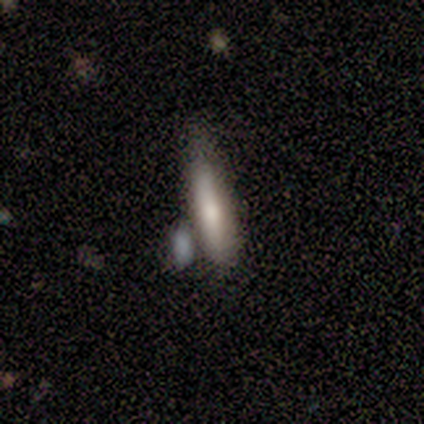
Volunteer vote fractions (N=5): smooth_or_featured: smooth (p=0.60) [alt: featured or disk p=0.40]
how_rounded: cigar-shaped (p=0.67) [alt: in between p=0.33]
merging: minor disturbance (p=0.60) [alt: none p=0.20]